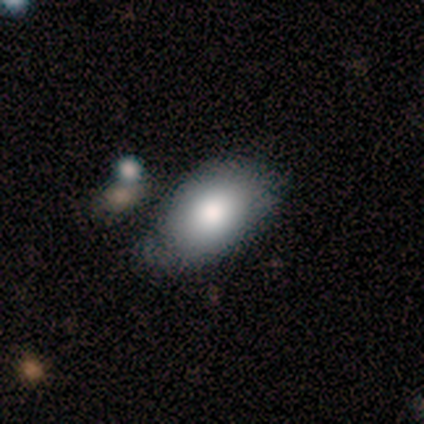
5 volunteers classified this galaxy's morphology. Overall: smooth (80%). How rounded: in between (100%). Merging: none (80%).